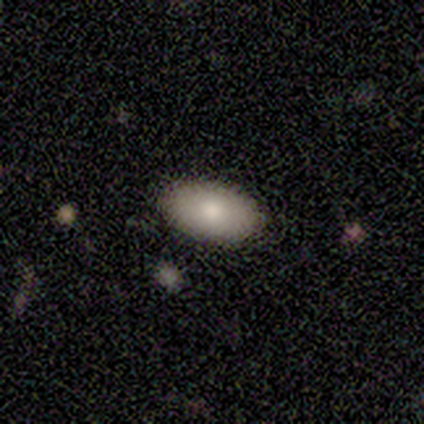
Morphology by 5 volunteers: A smooth galaxy with no disk features (100%) that is in between round and cigar-shaped (80%).

Vote fractions:
- Smooth or featured? smooth: 100% / featured or disk: 0% / star or artifact: 0%
- How rounded? in between: 80% / cigar-shaped: 20% / round: 0%
- Merging? none: 100% / minor disturbance: 0% / major disturbance: 0% / merger: 0%